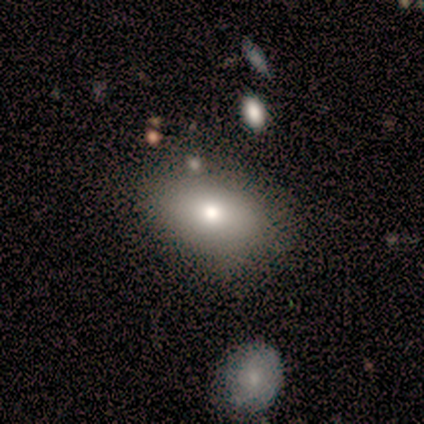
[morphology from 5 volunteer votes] Smooth or featured?
  - featured or disk: 40% * (tied)
  - star or artifact: 40% * (tied)
  - smooth: 20%
Edge-on disk?
  - no: 100% *
  - yes: 0%
Bar?
  - no: 100% *
  - strong: 0%
  - weak: 0%
Spiral arms?
  - no: 100% *
  - yes: 0%
Bulge size?
  - large: 50% * (tied)
  - moderate: 50% * (tied)
  - dominant: 0%
  - small: 0%
  - none: 0%
Merging?
  - none: 33% * (tied)
  - minor disturbance: 33% * (tied)
  - merger: 33% * (tied)
  - major disturbance: 0%